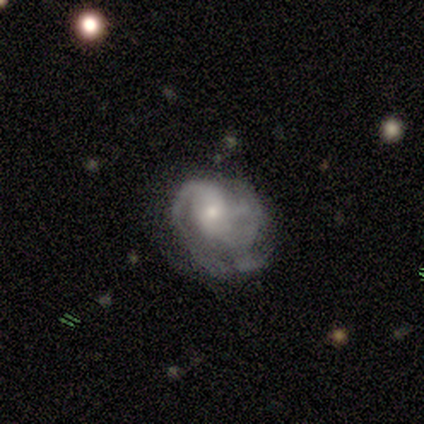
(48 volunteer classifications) Overall: featured or disk (79%). Edge-on disk: no (92%). Bar: no (69%). Spiral arms: yes (89%). Spiral arm count: 2 (65%). Spiral winding: medium (45%; tight 35%). Bulge size: moderate (54%; small 43%). Merging: none (41%; minor disturbance 30%).